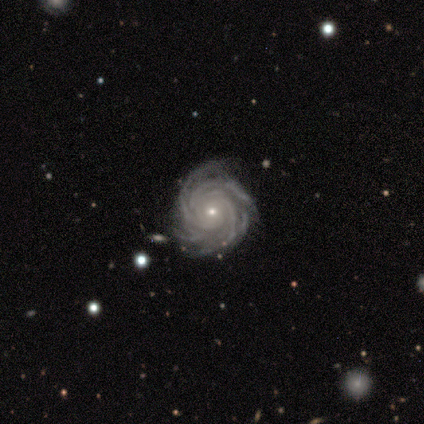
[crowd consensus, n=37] This is clearly a featured or disk galaxy (97%). It is clearly not viewed edge-on (100%). Bar: likely no (75%). Spiral arm pattern: clearly yes (100%). Spiral arm count: marginally more than 4 (36%). Spiral winding: likely tight (78%). Central bulge: likely small (75%). Merging: likely none (78%).